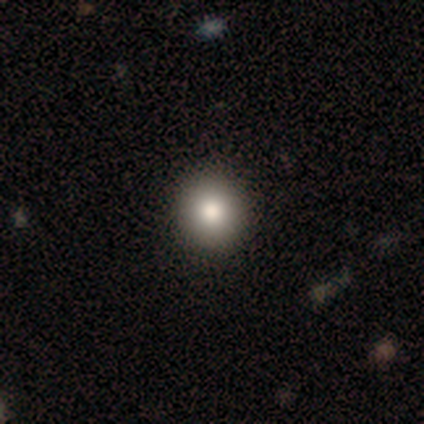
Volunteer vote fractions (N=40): smooth 90%, featured or disk 5%, star or artifact 5%. Down the decision tree: how rounded — round (89%); merging — none (71%).